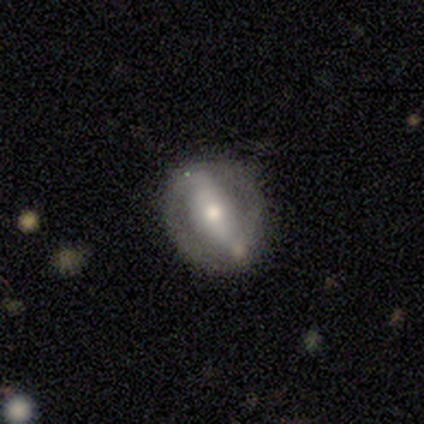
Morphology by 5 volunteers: type=featured or disk (80%); edge-on=no (100%); bar=strong (75%); spiral arms=yes (50%, tied with no); winding=tight (50%, tied with medium); arm count=2 (100%); bulge=moderate (75%); merging=none (80%).